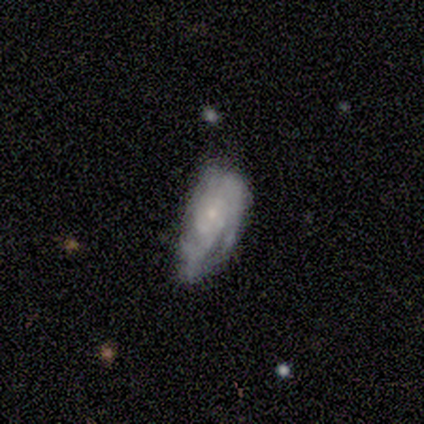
Q: Smooth or featured?
A: featured or disk (80%); runner-up: smooth (20%)
Q: Edge-on disk?
A: no (75%); runner-up: yes (25%)
Q: Bar?
A: no (67%); runner-up: weak (33%)
Q: Spiral arms?
A: yes (67%); runner-up: no (33%)
Q: Spiral winding?
A: tight (50%); tied with: medium (50%)
Q: Spiral arm count?
A: can't tell (100%)
Q: Bulge size?
A: small (100%)
Q: Merging?
A: major disturbance (60%); runner-up: minor disturbance (40%)